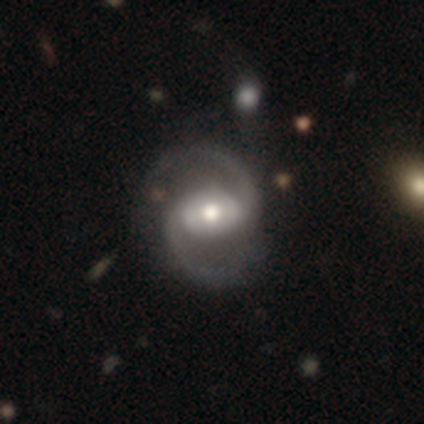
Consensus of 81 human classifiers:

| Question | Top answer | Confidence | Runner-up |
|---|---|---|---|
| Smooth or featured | featured or disk | 94% | smooth (4%) |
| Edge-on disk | no | 99% | yes (1%) |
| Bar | no | 40% | weak (31%) |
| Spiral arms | yes | 100% | — |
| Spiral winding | medium | 52% | loose (39%) |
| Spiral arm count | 2 | 100% | — |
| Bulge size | moderate | 77% | large (17%) |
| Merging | none | 38% | minor disturbance (8%) |